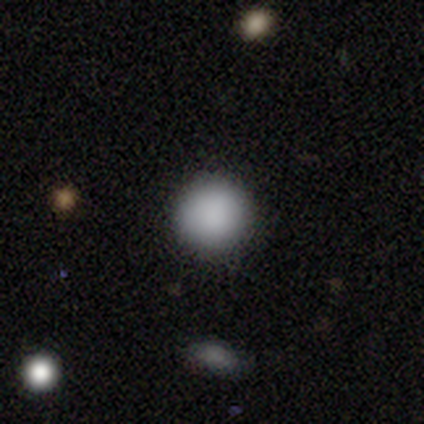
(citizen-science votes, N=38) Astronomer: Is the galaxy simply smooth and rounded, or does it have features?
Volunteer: smooth — 92%.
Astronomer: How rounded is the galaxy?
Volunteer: round — 97%.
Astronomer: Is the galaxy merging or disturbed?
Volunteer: none — 86%.